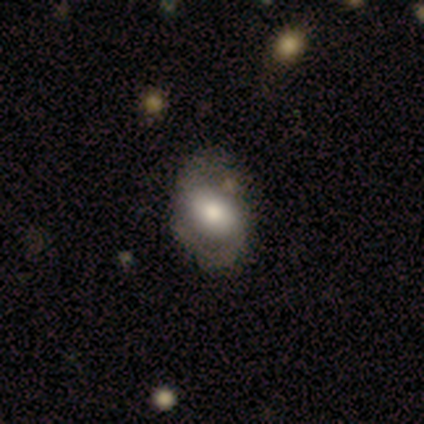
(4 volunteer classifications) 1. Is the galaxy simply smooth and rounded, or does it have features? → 75% smooth, 25% star or artifact, 0% featured or disk.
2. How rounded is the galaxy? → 100% in between, 0% round, 0% cigar-shaped.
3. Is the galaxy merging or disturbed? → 100% none, 0% minor disturbance, 0% major disturbance, 0% merger.